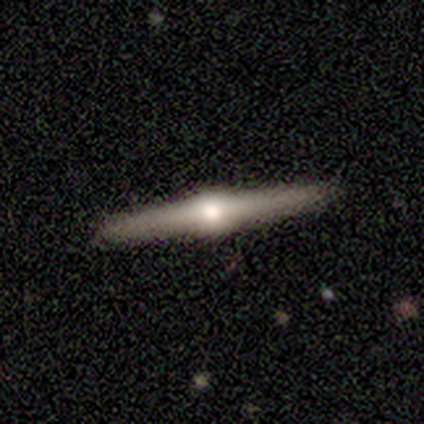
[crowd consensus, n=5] Smooth or featured?
  - featured or disk: 80% *
  - smooth: 20%
  - star or artifact: 0%
Edge-on disk?
  - yes: 100% *
  - no: 0%
Edge-on bulge?
  - rounded: 100% *
  - boxy: 0%
  - none: 0%
Merging?
  - none: 80% *
  - minor disturbance: 20%
  - major disturbance: 0%
  - merger: 0%